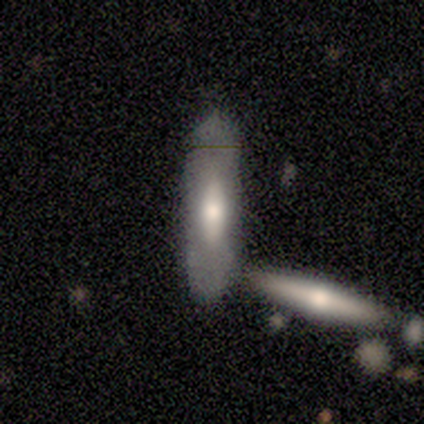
Q: Smooth or featured?
A: smooth (60%); runner-up: featured or disk (40%)
Q: How rounded?
A: cigar-shaped (100%)
Q: Merging?
A: none (60%); runner-up: minor disturbance (20%)